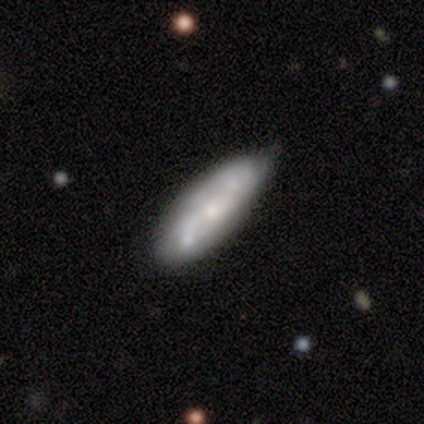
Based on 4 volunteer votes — Smooth or featured? smooth (50%, tied with featured or disk)
How rounded? in between (50%, tied with cigar-shaped)
Merging? none (75%)